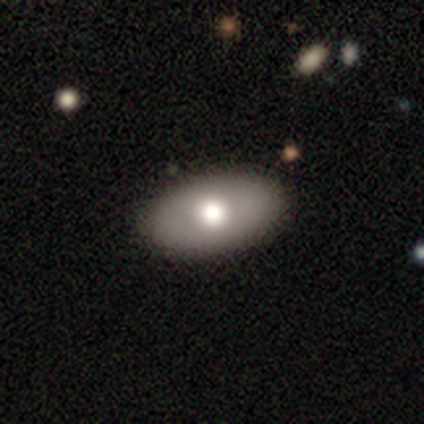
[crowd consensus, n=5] Q: Smooth or featured?
A: smooth (100%)
Q: How rounded?
A: in between (80%); runner-up: cigar-shaped (20%)
Q: Merging?
A: none (80%); runner-up: merger (20%)